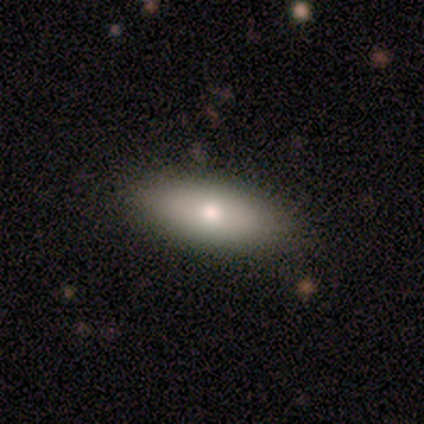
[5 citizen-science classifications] Morphology: type=featured or disk (60%); edge-on=no (100%); bar=no (100%); spiral arms=no (100%); bulge=moderate (67%); merging=none (100%).